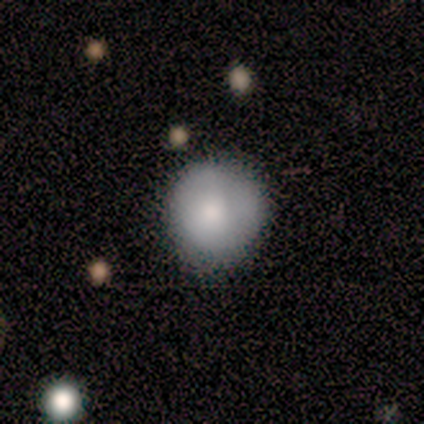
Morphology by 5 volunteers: This appears to be a smooth galaxy with no disk features (80%) that is round (100%). Merging: none (80%).